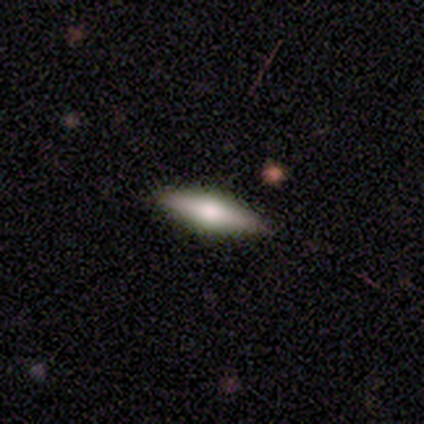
This is possibly a smooth galaxy (50%). How rounded: possibly in between (55%). Merging: clearly none (86%).